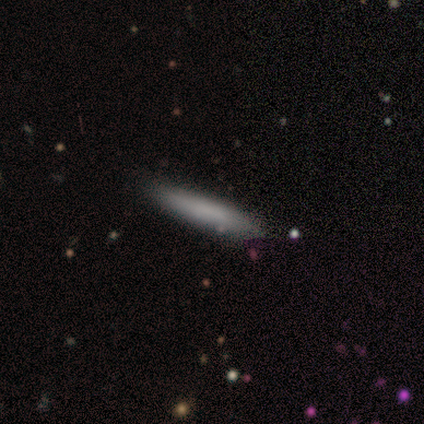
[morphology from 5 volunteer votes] Overall: smooth (100%). How rounded: cigar-shaped (100%). Merging: none (80%).